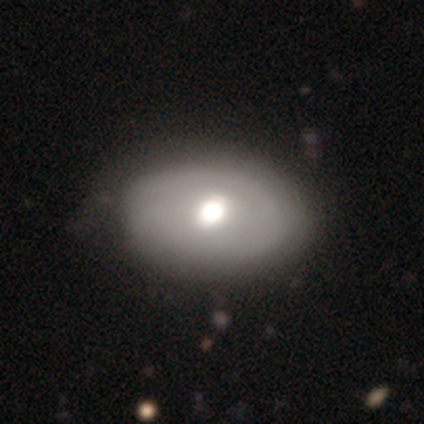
Smooth or featured? smooth (80%)
How rounded? round (50%, tied with in between)
Merging? none (60%)